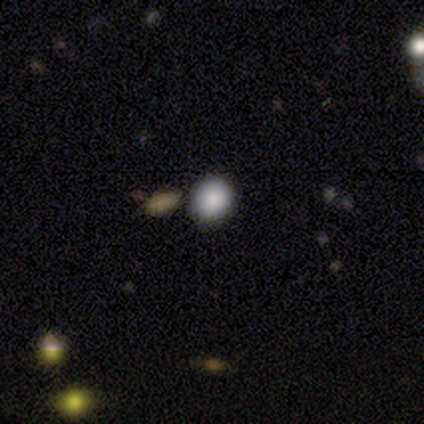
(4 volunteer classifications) This appears to be a smooth galaxy with no disk features (100%) that is round (100%). Merging: none (75%).